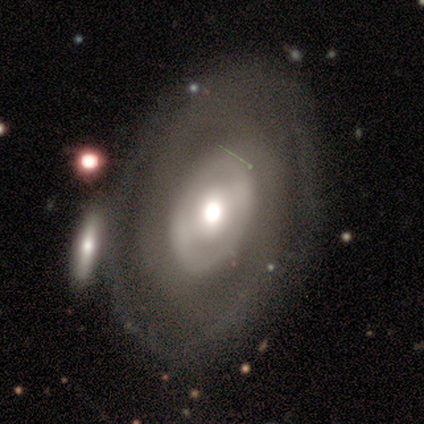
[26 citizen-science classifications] A featured or disk galaxy (69%) with a weak bar (41%, tied with no), 2 (44%, tied with can't tell) tight (56%) spiral arms (53%) and a moderate central bulge (65%).

Vote fractions:
- Smooth or featured? featured or disk: 69% / smooth: 27% / star or artifact: 4%
- Edge-on disk? no: 94% / yes: 6%
- Bar? weak: 41% (tied) / no: 41% (tied) / strong: 18%
- Spiral arms? yes: 53% / no: 47%
- Spiral winding? tight: 56% / medium: 22% / loose: 22%
- Spiral arm count? 2: 44% (tied) / can't tell: 44% (tied) / 1: 11% / 3: 0% / 4: 0% / more than 4: 0%
- Bulge size? moderate: 65% / large: 18% / small: 18% / dominant: 0% / none: 0%
- Merging? none: 28% / merger: 20% / minor disturbance: 4% / major disturbance: 0%